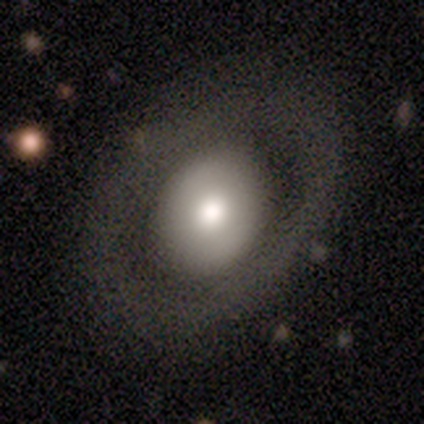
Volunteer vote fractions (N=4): A featured or disk galaxy (75%) with no bar (100%), no spiral arms (100%) and a moderate central bulge (50%, tied with small). Merging: none (67%).